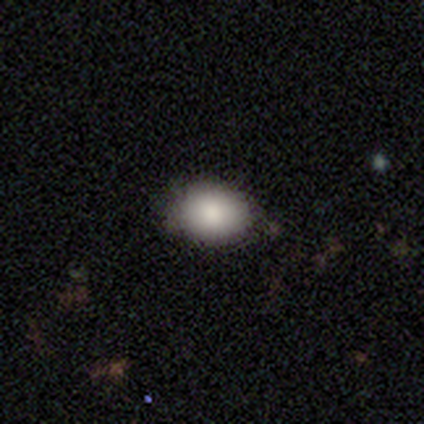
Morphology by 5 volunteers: Q: Smooth or featured?
A: smooth (80%); runner-up: featured or disk (20%)
Q: How rounded?
A: in between (100%)
Q: Merging?
A: none (60%); runner-up: minor disturbance (40%)